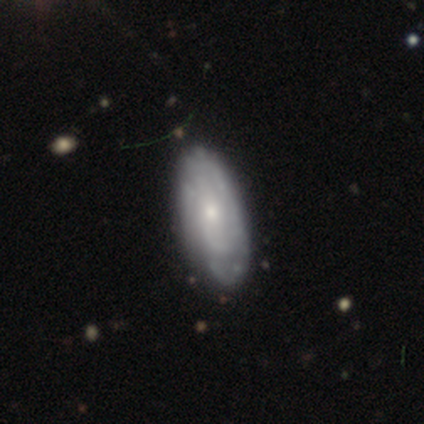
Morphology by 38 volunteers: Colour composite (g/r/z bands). It shows a featured or disk galaxy (68%) with no bar (80%), tight (60%) spiral arms (80%) and a small central bulge (60%). Merging: none (47%).